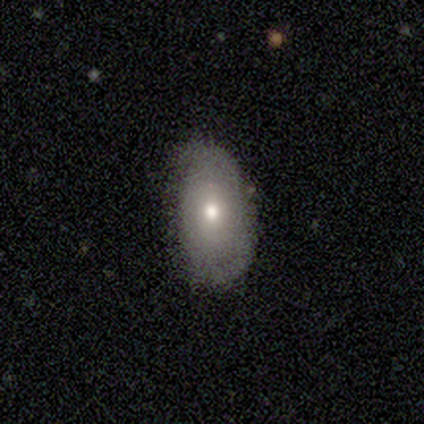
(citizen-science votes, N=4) Overall: smooth (100%). How rounded: in between (100%). Merging: none (100%).